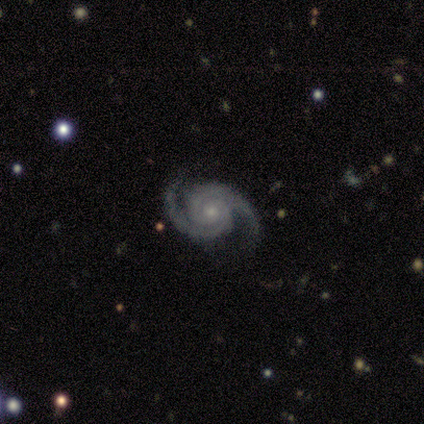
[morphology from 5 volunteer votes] smooth_or_featured: featured or disk (p=1.00)
disk_edge_on: no (p=1.00)
bar: no (p=0.60) [alt: strong p=0.40]
has_spiral_arms: yes (p=1.00)
spiral_winding: tight (p=0.80) [alt: medium p=0.20]
spiral_arm_count: 2 (p=0.80) [alt: 3 p=0.20]
bulge_size: small (p=0.60) [alt: moderate p=0.20]
merging: none (p=1.00)